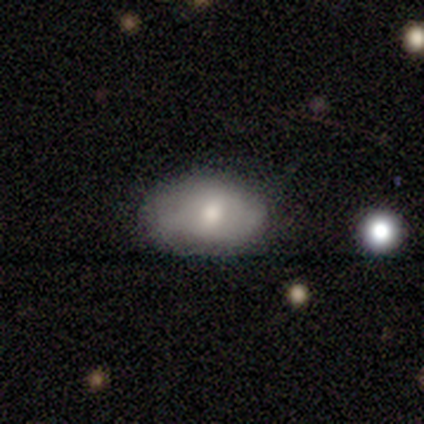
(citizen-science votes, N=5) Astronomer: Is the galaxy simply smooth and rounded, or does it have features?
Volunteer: smooth — 100%.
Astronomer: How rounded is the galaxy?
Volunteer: in between — 100%.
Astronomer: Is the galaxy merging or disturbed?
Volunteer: none — 100%.